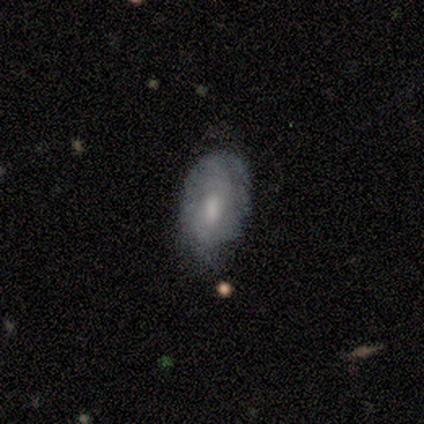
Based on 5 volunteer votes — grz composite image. It shows a featured or disk galaxy (60%) with no bar (100%), tight (100%) spiral arms (50%, tied with no) and a small central bulge (100%). Merging: minor disturbance (40%, tied with major disturbance).